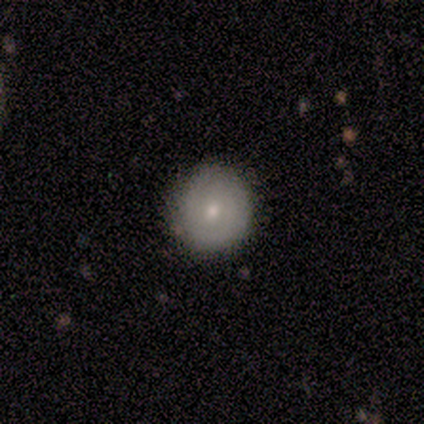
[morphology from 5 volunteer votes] Overall: smooth (80%). How rounded: round (50%, tied with in between). Merging: none (100%).